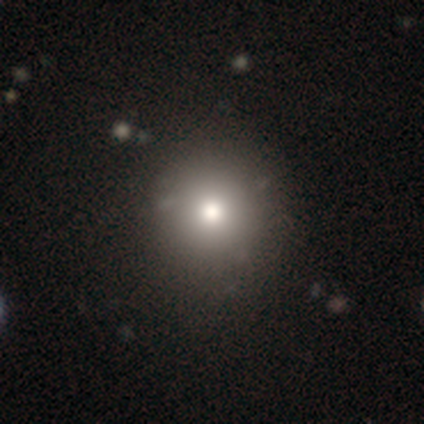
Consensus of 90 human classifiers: Morphology: type=smooth (74%); roundness=round (93%); merging=none (88%).